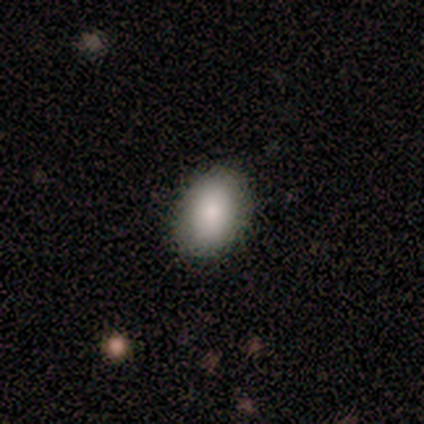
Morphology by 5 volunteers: A smooth galaxy with no disk features (80%) that is round (50%, tied with in between).

Vote fractions:
- Smooth or featured? smooth: 80% / featured or disk: 20% / star or artifact: 0%
- How rounded? round: 50% (tied) / in between: 50% (tied) / cigar-shaped: 0%
- Merging? none: 100% / minor disturbance: 0% / major disturbance: 0% / merger: 0%